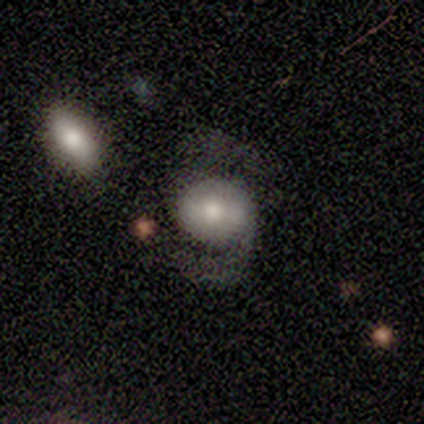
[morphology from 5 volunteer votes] This appears to be a featured or disk galaxy (60%) with a strong bar (33%, tied with weak and no), 2 (100%) medium (67%) spiral arms (100%) and a small central bulge (67%). Merging: none (100%).